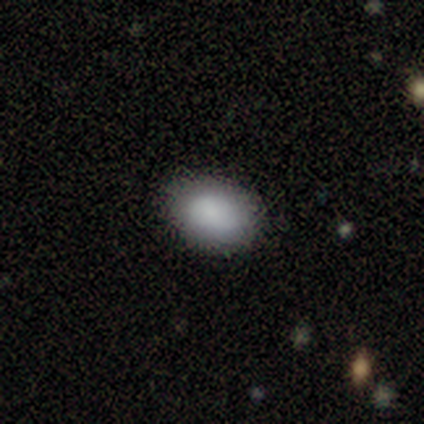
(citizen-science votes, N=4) Morphology: type=smooth (100%); roundness=in between (100%); merging=none (100%).